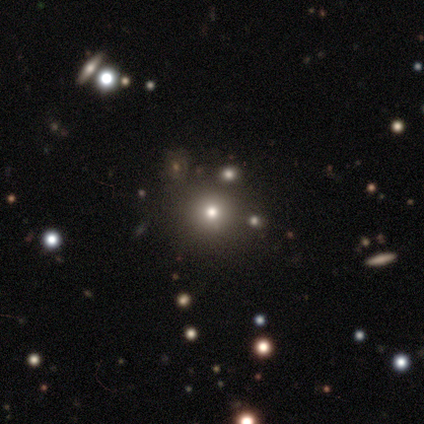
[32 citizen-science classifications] This appears to be a smooth galaxy with no disk features (72%) that is round (100%). Merging: none (92%).